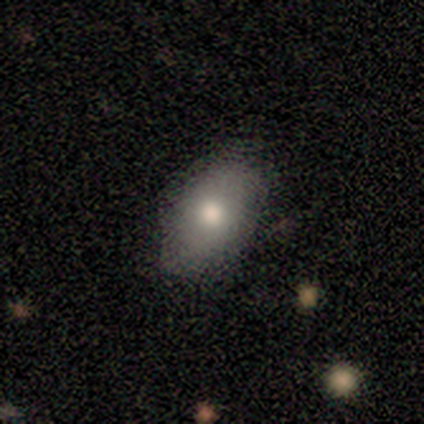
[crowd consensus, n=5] smooth 60%, featured or disk 40%, star or artifact 0%. Down the decision tree: how rounded — in between (100%); merging — none (100%).